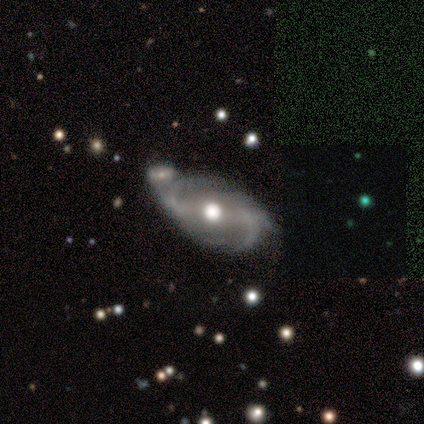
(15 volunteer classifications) Volunteers were most divided on "bar": weak: 46%, no: 38%, strong: 15%. Remaining: edge-on disk — no (100%); spiral arms — yes (92%); smooth or featured — featured or disk (87%); bulge size — moderate (85%); spiral arm count — 2 (75%); spiral winding — medium (67%); merging — none (43%).